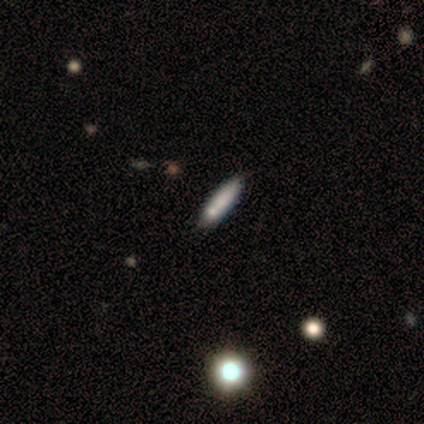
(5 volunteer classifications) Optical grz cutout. It shows a smooth galaxy with no disk features (100%) that is cigar-shaped (80%). Merging: none (80%).